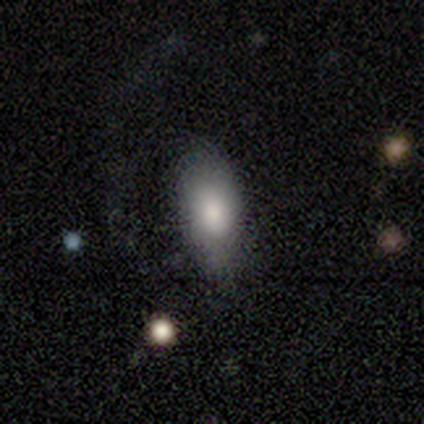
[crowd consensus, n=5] smooth-or-featured: smooth: 100% | featured or disk: 0% | star or artifact: 0%
  how-rounded: in between: 100% | round: 0% | cigar-shaped: 0%
  merging: none: 60% | minor disturbance: 40% | major disturbance: 0% | merger: 0%